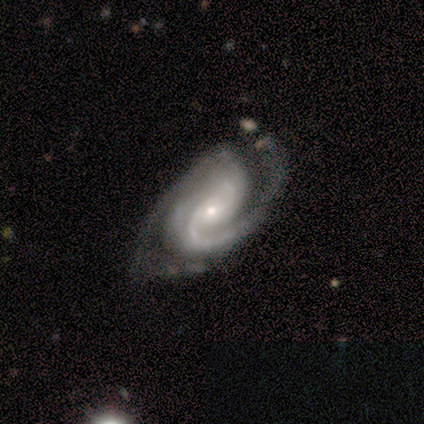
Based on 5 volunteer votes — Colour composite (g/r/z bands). It shows a featured or disk galaxy (100%) with a weak bar (80%), 2 (80%) medium (60%) spiral arms (100%) and a small central bulge (80%). Merging: none (100%).